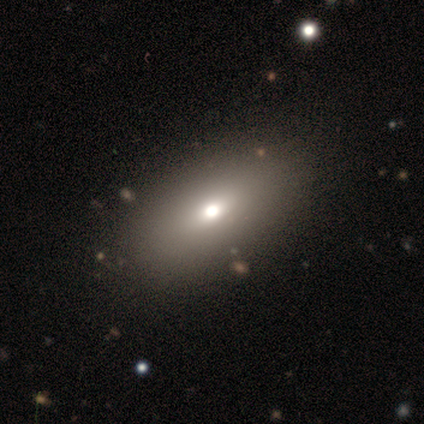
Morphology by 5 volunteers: Smooth or featured?
  - smooth: 60% *
  - featured or disk: 20%
  - star or artifact: 20%
How rounded?
  - in between: 100% *
  - round: 0%
  - cigar-shaped: 0%
Merging?
  - none: 100% *
  - minor disturbance: 0%
  - major disturbance: 0%
  - merger: 0%